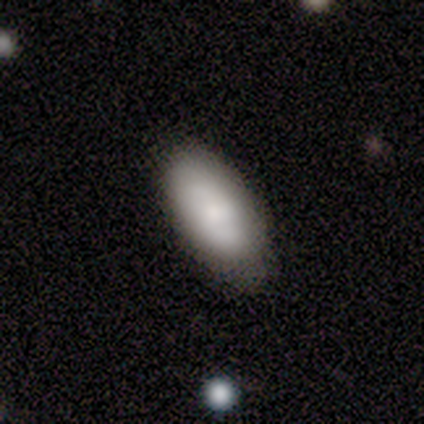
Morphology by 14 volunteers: This is likely a smooth galaxy (79%). How rounded: clearly in between (100%). Merging: likely none (79%).